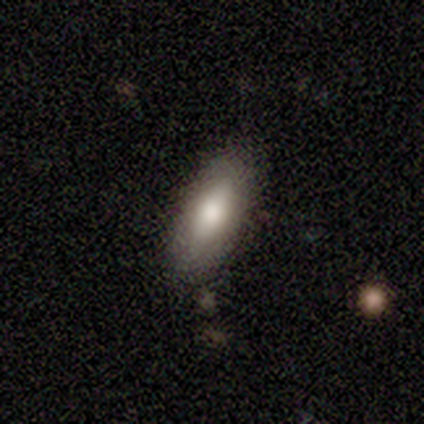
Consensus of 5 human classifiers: Smooth or featured? 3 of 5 (60%) said smooth. How rounded? 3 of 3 (100%) said in between. Merging? 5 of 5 (100%) said none.